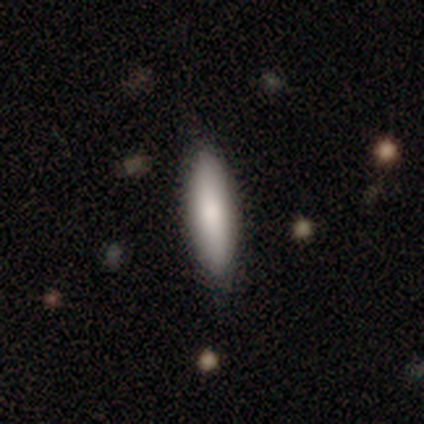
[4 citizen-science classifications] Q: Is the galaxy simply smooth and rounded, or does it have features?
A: smooth — 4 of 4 (100%).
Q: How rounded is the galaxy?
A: in between — 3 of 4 (75%).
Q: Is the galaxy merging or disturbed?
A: none — 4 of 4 (100%).